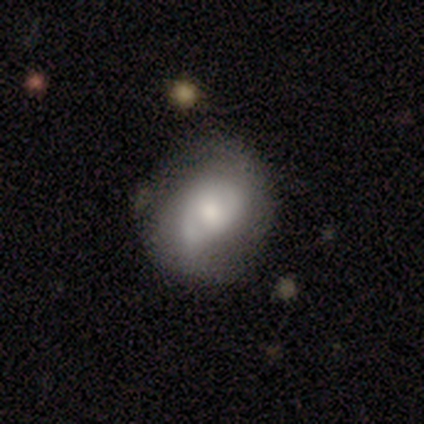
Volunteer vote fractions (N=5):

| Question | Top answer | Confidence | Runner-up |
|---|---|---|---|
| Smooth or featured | featured or disk | 60% | smooth (40%) |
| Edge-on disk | no | 100% | — |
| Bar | no | 67% | weak (33%) |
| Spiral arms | yes | 100% | — |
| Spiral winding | tight | 67% | loose (33%) |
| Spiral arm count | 1 | 33% | tied: 2 (33%), can't tell (33%) |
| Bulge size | moderate | 67% | large (33%) |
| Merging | none | 60% | minor disturbance (20%) |